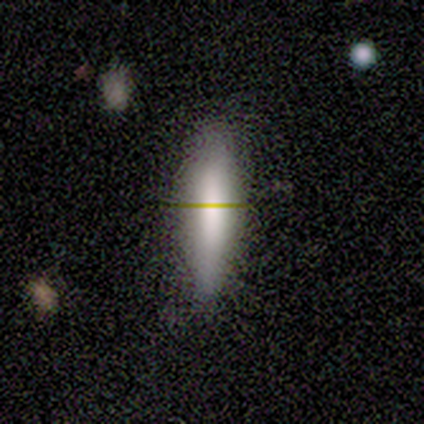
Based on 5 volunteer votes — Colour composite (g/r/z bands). It shows a smooth galaxy with no disk features (60%) that is cigar-shaped (100%). Merging: none (50%, tied with minor disturbance).